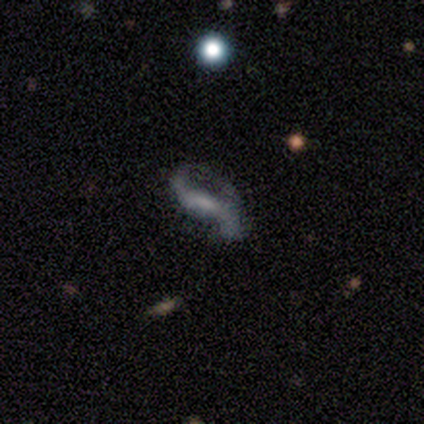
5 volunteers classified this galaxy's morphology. Smooth or featured: featured or disk — 60% (smooth — 40%)
Edge-on disk: no — 100%
Bar: strong — 33% (tied with weak — 33%; no — 33%)
Spiral arms: yes — 67% (no — 33%)
Spiral winding: loose — 100%
Spiral arm count: 2 — 100%
Bulge size: moderate — 33% (tied with small — 33%; none — 33%)
Merging: none — 40% (tied with minor disturbance — 40%)